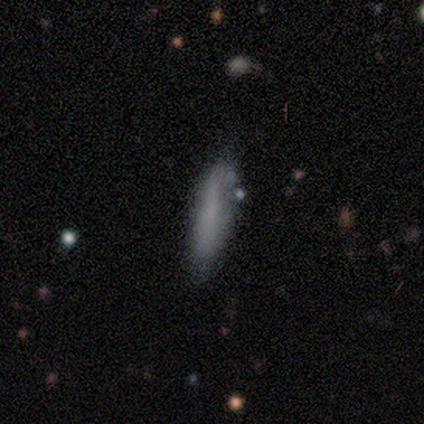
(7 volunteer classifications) A smooth galaxy with no disk features (43%, tied with featured or disk) that is cigar-shaped (100%).

Vote fractions:
- Smooth or featured? smooth: 43% (tied) / featured or disk: 43% (tied) / star or artifact: 14%
- How rounded? cigar-shaped: 100% / round: 0% / in between: 0%
- Merging? minor disturbance: 67% / none: 33% / major disturbance: 0% / merger: 0%